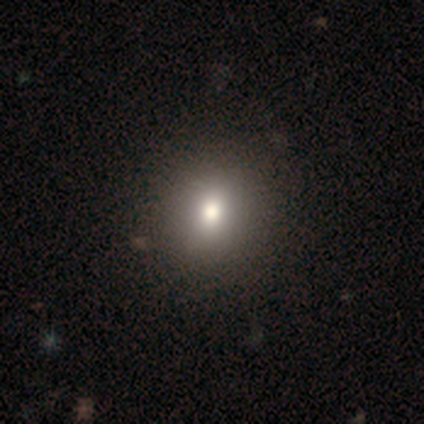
smooth 80%, featured or disk 20%, star or artifact 0%. Down the decision tree: how rounded — round (75%); merging — none (60%).